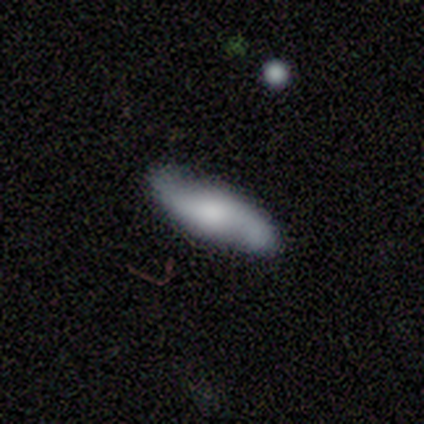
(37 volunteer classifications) Smooth or featured?
  - featured or disk: 57% *
  - smooth: 41%
  - star or artifact: 3%
Edge-on disk?
  - no: 67% *
  - yes: 33%
Bar?
  - no: 64% *
  - weak: 36%
  - strong: 0%
Spiral arms?
  - yes: 100% *
  - no: 0%
Spiral winding?
  - loose: 71% *
  - medium: 21%
  - tight: 7%
Spiral arm count?
  - 2: 100% *
  - 1: 0%
  - 3: 0%
  - 4: 0%
  - more than 4: 0%
  - can't tell: 0%
Bulge size?
  - moderate: 50% *
  - large: 29%
  - small: 21%
  - dominant: 0%
  - none: 0%
Merging?
  - none: 81% *
  - minor disturbance: 17%
  - merger: 3%
  - major disturbance: 0%